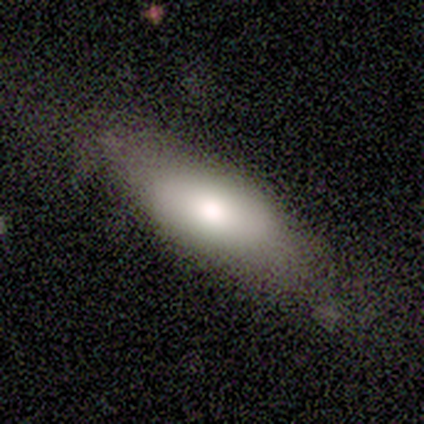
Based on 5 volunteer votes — Volunteers were most divided on "merging": none: 60%, minor disturbance: 40%, major disturbance: 0%, merger: 0%. More confident: smooth or featured — smooth (80%); how rounded — in between (75%).